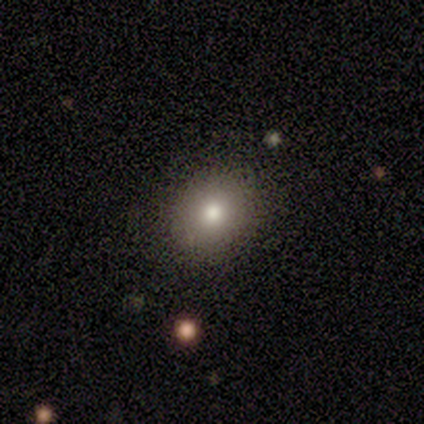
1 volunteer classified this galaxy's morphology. Smooth or featured? smooth (100%)
How rounded? round (100%)
Merging? major disturbance (100%)